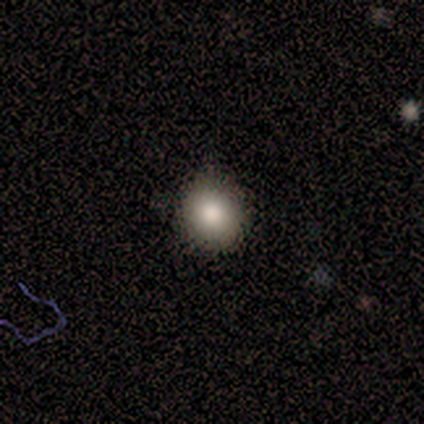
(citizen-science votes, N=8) Smooth or featured: smooth — 88% (star or artifact — 12%)
How rounded: round — 100%
Merging: none — 86% (minor disturbance — 14%)